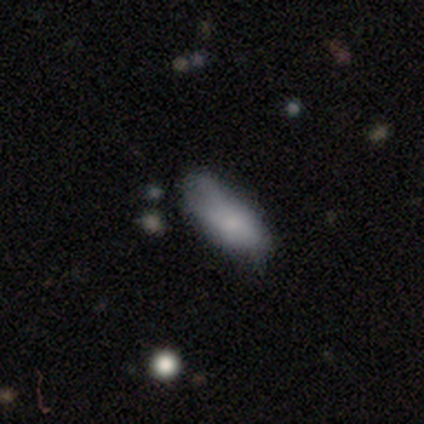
A smooth galaxy with no disk features (50%) that is in between round and cigar-shaped (100%).

Vote fractions:
- Smooth or featured? smooth: 50% / featured or disk: 25% / star or artifact: 25%
- How rounded? in between: 100% / round: 0% / cigar-shaped: 0%
- Merging? none: 67% / minor disturbance: 33% / major disturbance: 0% / merger: 0%